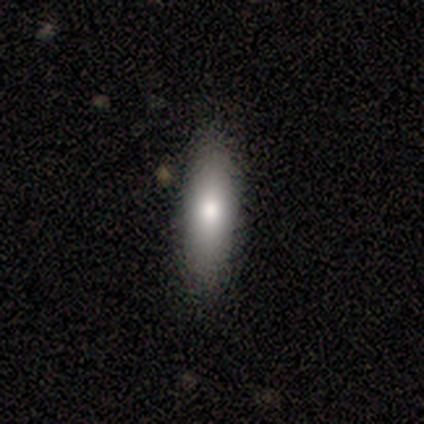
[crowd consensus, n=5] Smooth or featured?
  - smooth: 60% *
  - featured or disk: 20%
  - star or artifact: 20%
How rounded?
  - cigar-shaped: 67% *
  - in between: 33%
  - round: 0%
Merging?
  - none: 100% *
  - minor disturbance: 0%
  - major disturbance: 0%
  - merger: 0%